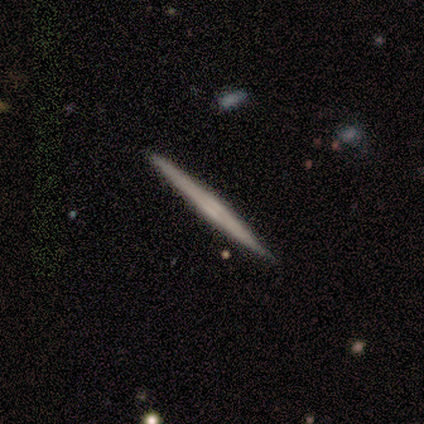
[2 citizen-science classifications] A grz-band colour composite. It shows a featured or disk galaxy (100%) viewed edge-on (100%) with a boxy central bulge (50%, tied with rounded). Merging: none (100%).